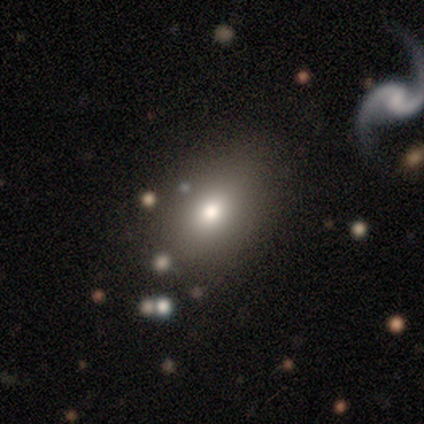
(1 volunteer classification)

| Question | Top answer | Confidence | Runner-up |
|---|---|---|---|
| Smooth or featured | smooth | 100% | — |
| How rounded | in between | 100% | — |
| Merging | none | 100% | — |